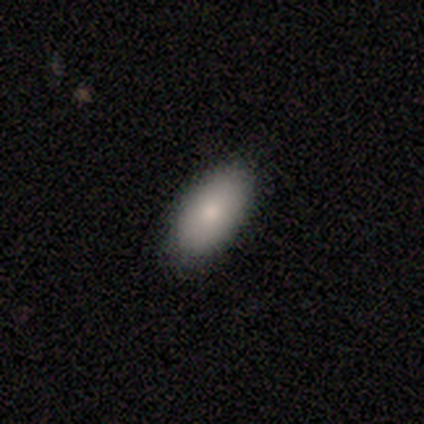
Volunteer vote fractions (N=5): A smooth galaxy with no disk features (60%) that is in between round and cigar-shaped (100%). Merging: none (75%).